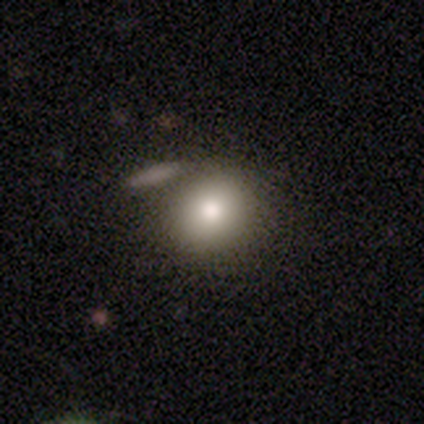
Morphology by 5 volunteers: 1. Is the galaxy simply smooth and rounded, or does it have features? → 100% smooth, 0% featured or disk, 0% star or artifact.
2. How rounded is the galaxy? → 100% round, 0% in between, 0% cigar-shaped.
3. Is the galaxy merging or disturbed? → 40% none (tied), 40% merger (tied), 20% minor disturbance, 0% major disturbance.